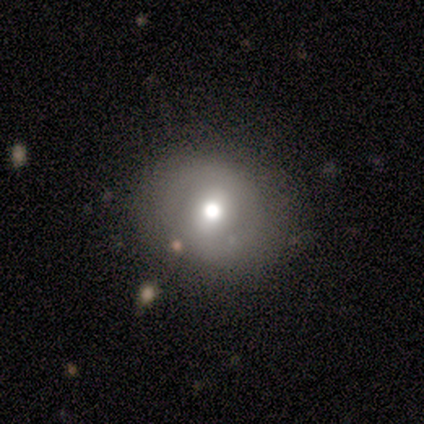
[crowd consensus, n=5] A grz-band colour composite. It shows a smooth galaxy with no disk features (60%) that is round (100%). Merging: none (100%).